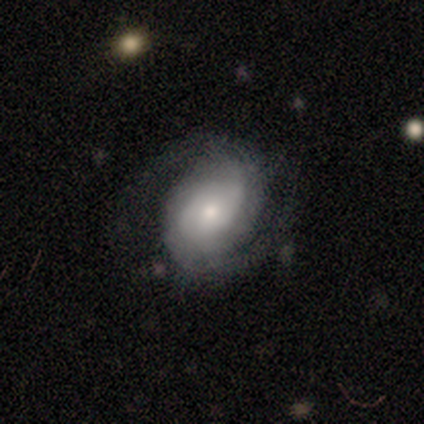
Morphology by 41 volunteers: Overall: featured or disk (73%). Edge-on disk: no (93%). Bar: no (79%). Spiral arms: yes (96%). Spiral arm count: 2 (78%). Spiral winding: tight (48%; medium 33%). Bulge size: moderate (54%; large 21%). Merging: none (69%).